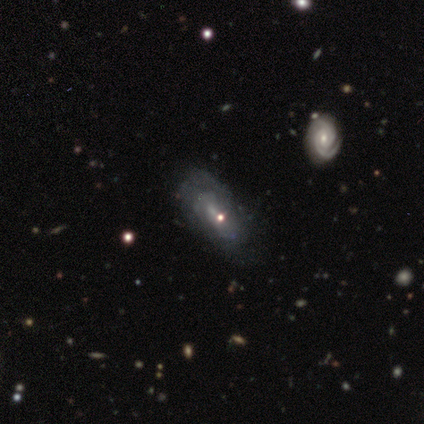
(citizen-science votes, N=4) This is likely a featured or disk galaxy (75%). It is clearly not viewed edge-on (100%). Bar: likely no (67%). Spiral arm pattern: likely yes (67%). Spiral arm count: possibly 1 (50%, tied with can't tell). Spiral winding: clearly tight (100%). Central bulge: likely small (67%). Merging: likely none (67%).